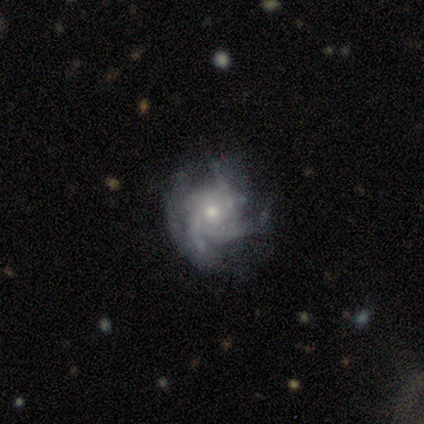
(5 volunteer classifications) Q: Smooth or featured?
A: featured or disk (100%)
Q: Edge-on disk?
A: no (100%)
Q: Bar?
A: no (80%); runner-up: strong (20%)
Q: Spiral arms?
A: yes (100%)
Q: Spiral winding?
A: medium (60%); runner-up: tight (40%)
Q: Spiral arm count?
A: 4 (40%); tied with: more than 4 (40%)
Q: Bulge size?
A: small (80%); runner-up: moderate (20%)
Q: Merging?
A: none (40%); tied with: minor disturbance (40%)